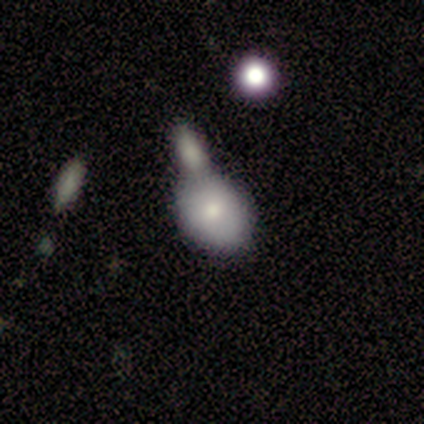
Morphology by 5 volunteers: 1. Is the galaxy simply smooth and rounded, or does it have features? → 60% featured or disk, 40% smooth, 0% star or artifact.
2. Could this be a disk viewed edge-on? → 67% no, 33% yes.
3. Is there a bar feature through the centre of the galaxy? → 100% no, 0% strong, 0% weak.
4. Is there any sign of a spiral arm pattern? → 100% no, 0% yes.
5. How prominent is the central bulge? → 100% small, 0% dominant, 0% large, 0% moderate, 0% none.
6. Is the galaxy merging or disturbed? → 40% none (tied), 40% merger (tied), 20% minor disturbance, 0% major disturbance.